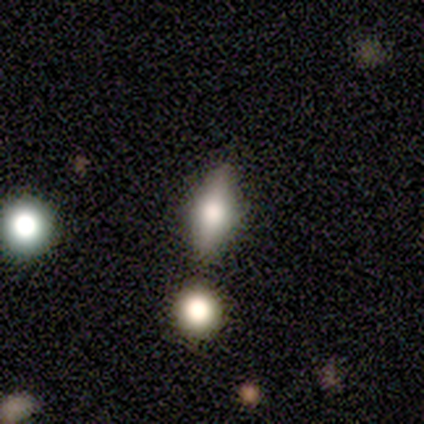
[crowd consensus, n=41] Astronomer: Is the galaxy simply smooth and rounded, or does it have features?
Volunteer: smooth — 61%.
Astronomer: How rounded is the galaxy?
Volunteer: in between — 68%.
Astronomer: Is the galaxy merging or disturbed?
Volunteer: none — 87%.